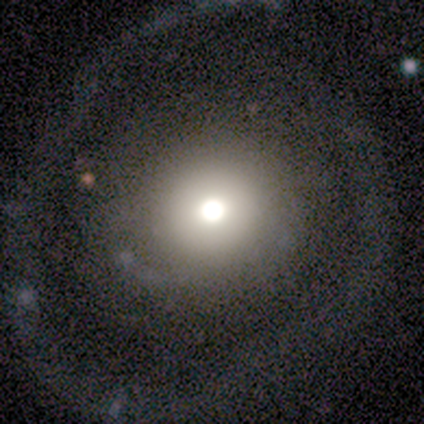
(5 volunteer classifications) smooth-or-featured: star or artifact: 60% | smooth: 20% | featured or disk: 20%